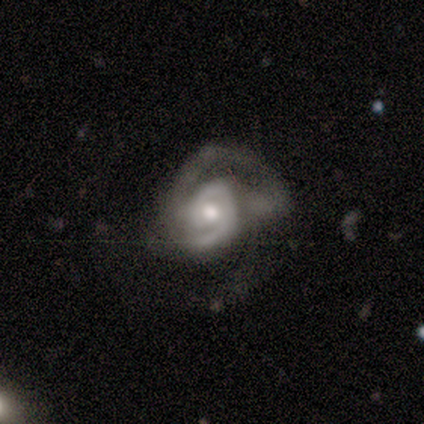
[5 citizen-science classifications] featured or disk 100%, smooth 0%, star or artifact 0%. Down the decision tree: edge-on disk — no (100%); bar — no (100%); spiral arms — yes (100%); spiral arm count — 2 (60%); spiral winding — tight (80%); bulge size — moderate (60%); merging — none (40%, tied with major disturbance).